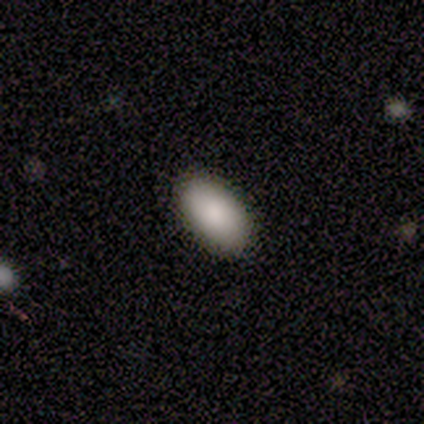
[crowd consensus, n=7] This is clearly a smooth galaxy (100%). How rounded: clearly in between (100%). Merging: clearly none (86%).